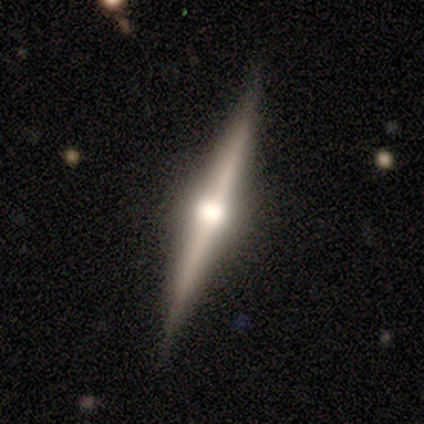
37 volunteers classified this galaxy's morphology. Q: Smooth or featured?
A: featured or disk (89%); runner-up: smooth (11%)
Q: Edge-on disk?
A: yes (100%)
Q: Edge-on bulge?
A: rounded (94%); runner-up: boxy (3%)
Q: Merging?
A: none (86%); runner-up: minor disturbance (8%)